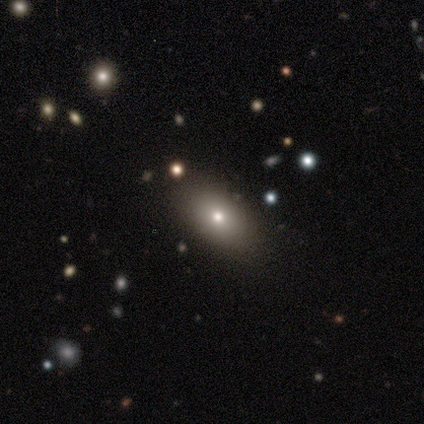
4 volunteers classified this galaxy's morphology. Smooth or featured? 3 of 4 (75%) said smooth. How rounded? 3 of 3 (100%) said in between. Merging? 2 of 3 (67%) said none.